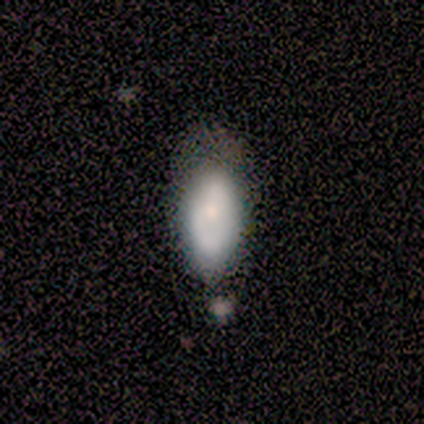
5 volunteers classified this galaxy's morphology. Smooth or featured?
  - smooth: 80% *
  - star or artifact: 20%
  - featured or disk: 0%
How rounded?
  - in between: 100% *
  - round: 0%
  - cigar-shaped: 0%
Merging?
  - none: 50% *
  - minor disturbance: 25%
  - major disturbance: 25%
  - merger: 0%